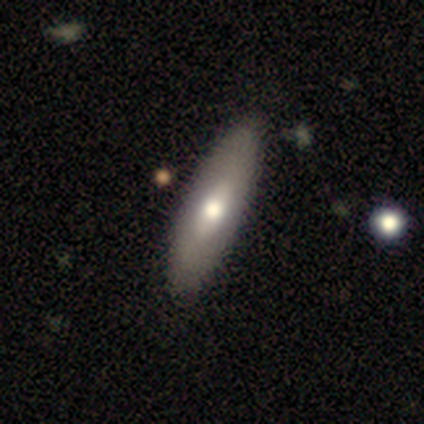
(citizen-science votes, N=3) smooth_or_featured: smooth (p=1.00)
how_rounded: cigar-shaped (p=0.67) [alt: in between p=0.33]
merging: none (p=0.67) [alt: minor disturbance p=0.33]